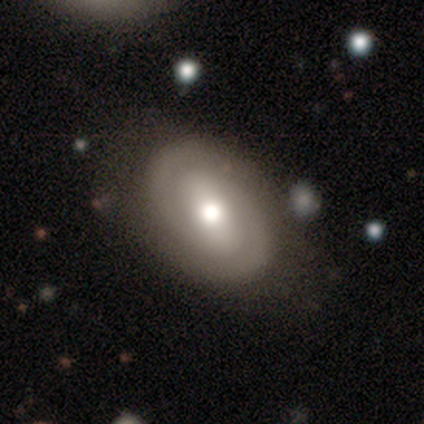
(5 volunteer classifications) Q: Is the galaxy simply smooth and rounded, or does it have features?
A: featured or disk — 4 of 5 (80%).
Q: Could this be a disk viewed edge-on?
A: no — 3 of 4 (75%).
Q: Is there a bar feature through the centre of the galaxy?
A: weak — 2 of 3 (67%).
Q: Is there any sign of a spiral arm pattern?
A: yes — 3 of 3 (100%).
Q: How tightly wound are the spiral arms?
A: tight — 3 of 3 (100%).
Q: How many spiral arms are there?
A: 2 — 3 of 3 (100%).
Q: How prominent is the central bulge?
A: moderate — 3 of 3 (100%).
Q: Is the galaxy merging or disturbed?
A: none — 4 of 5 (80%).